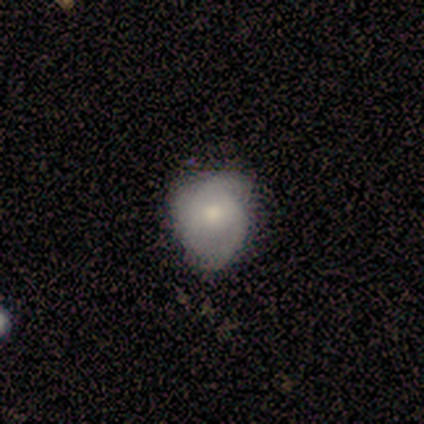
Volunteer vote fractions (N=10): featured or disk 60%, smooth 40%, star or artifact 0%. Down the decision tree: edge-on disk — no (83%); bar — no (60%); spiral arms — yes (100%); spiral arm count — 2 (60%); spiral winding — tight (40%, tied with medium); bulge size — moderate (80%); merging — none (60%).